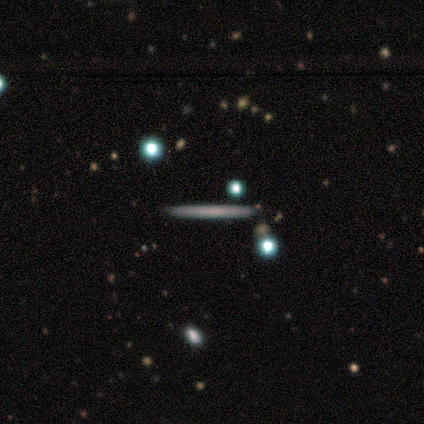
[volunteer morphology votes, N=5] type=smooth (60%); roundness=cigar-shaped (100%); merging=none (100%).